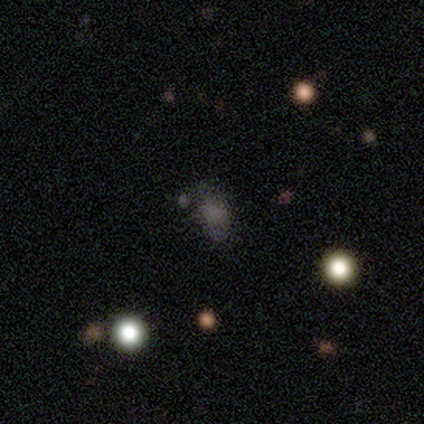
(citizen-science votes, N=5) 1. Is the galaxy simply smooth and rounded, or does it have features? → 60% smooth, 40% star or artifact, 0% featured or disk.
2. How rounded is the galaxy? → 67% in between, 33% round, 0% cigar-shaped.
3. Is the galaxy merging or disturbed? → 67% none, 33% major disturbance, 0% minor disturbance, 0% merger.